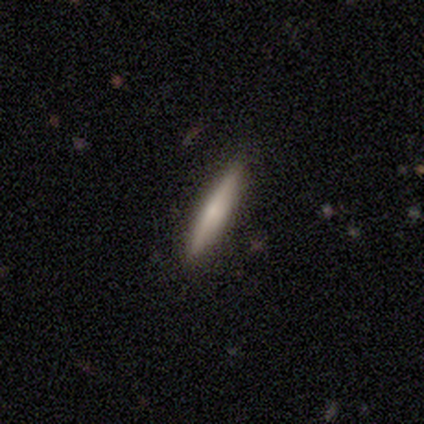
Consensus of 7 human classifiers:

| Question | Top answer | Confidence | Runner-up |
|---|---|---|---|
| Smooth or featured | smooth | 71% | featured or disk (29%) |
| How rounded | cigar-shaped | 100% | — |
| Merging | none | 86% | minor disturbance (14%) |